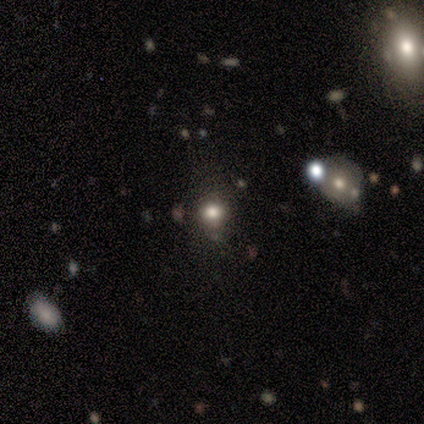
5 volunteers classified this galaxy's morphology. Q: Smooth or featured?
A: smooth (80%); runner-up: star or artifact (20%)
Q: How rounded?
A: round (100%)
Q: Merging?
A: none (75%); runner-up: major disturbance (25%)